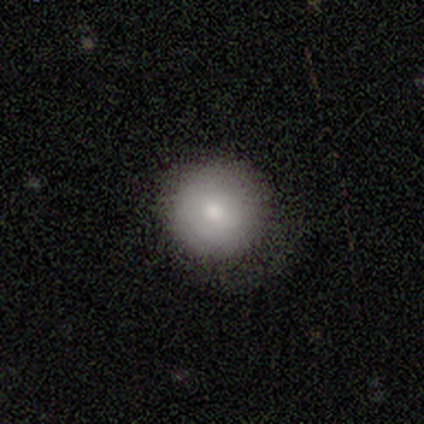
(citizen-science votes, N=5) A smooth galaxy with no disk features (80%) that is round (75%). Merging: none (60%).